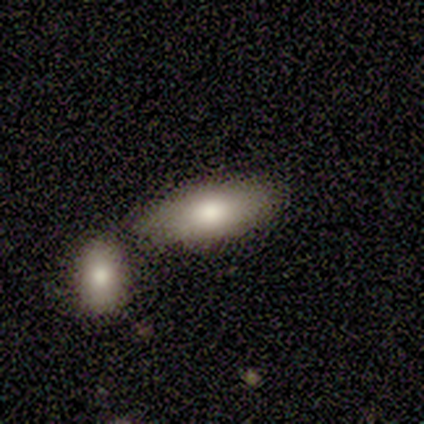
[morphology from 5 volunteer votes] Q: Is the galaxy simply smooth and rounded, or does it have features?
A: smooth — 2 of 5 (40%, tied with featured or disk).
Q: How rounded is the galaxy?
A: in between — 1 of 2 (50%, tied with cigar-shaped).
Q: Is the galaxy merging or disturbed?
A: none — 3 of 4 (75%).